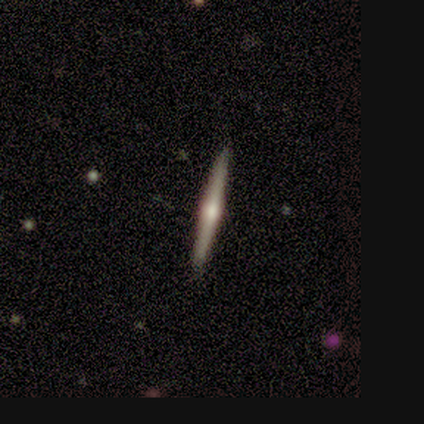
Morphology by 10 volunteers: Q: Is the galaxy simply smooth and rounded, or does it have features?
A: featured or disk — 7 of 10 (70%).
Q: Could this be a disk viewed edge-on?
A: yes — 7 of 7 (100%).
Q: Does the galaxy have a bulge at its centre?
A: rounded — 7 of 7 (100%).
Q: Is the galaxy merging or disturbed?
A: none — 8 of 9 (89%).